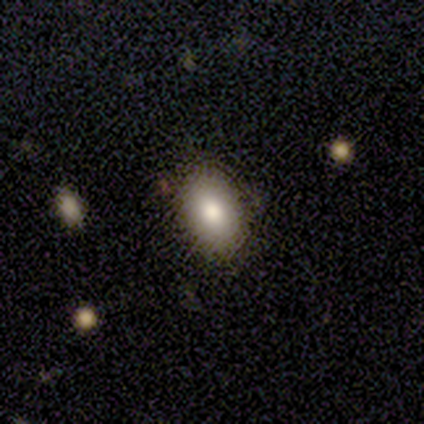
smooth_or_featured: smooth (p=0.60) [alt: featured or disk p=0.20]
how_rounded: in between (p=0.67) [alt: round p=0.33]
merging: none (p=1.00)